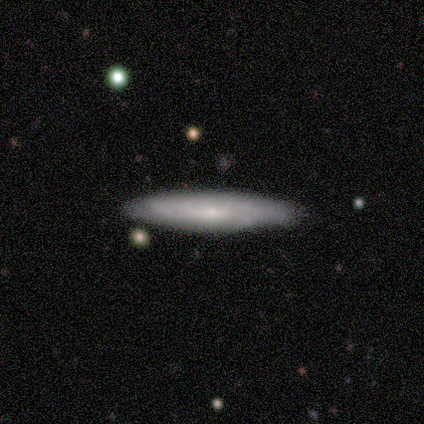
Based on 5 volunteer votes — Smooth or featured: featured or disk — 80% (smooth — 20%)
Edge-on disk: yes — 50% (tied with no — 50%)
Edge-on bulge: none — 50% (tied with rounded — 50%)
Merging: none — 60% (minor disturbance — 40%)